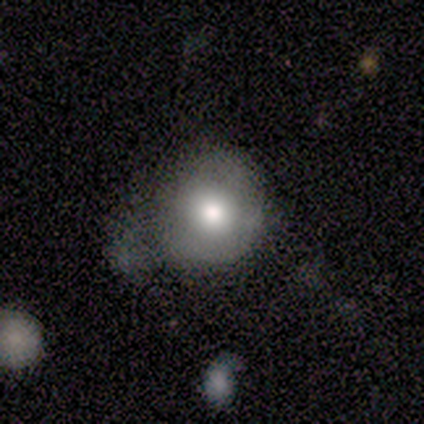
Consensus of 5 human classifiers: Morphology: type=smooth (60%); roundness=round (100%); merging=none (40%, tied with minor disturbance).